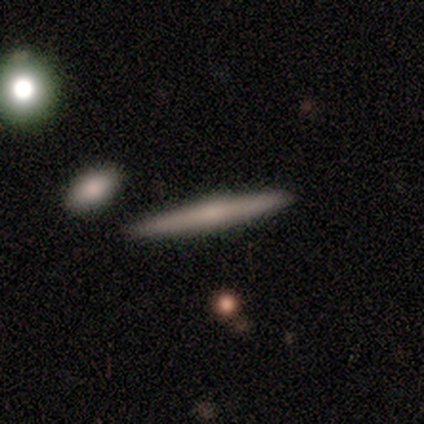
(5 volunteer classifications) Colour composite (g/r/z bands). It shows a featured or disk galaxy (60%) viewed edge-on (100%) with no central bulge (67%). Merging: none (100%).